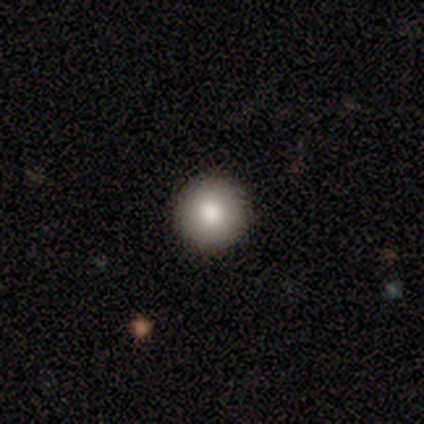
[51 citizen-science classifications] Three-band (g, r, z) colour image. It shows a smooth galaxy with no disk features (88%) that is round (93%). Merging: none (93%).